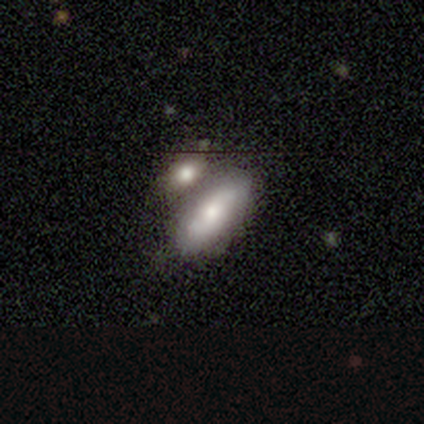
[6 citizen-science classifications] Volunteers were most divided on "how rounded" (2-way tie): in between: 50%, cigar-shaped: 50%, round: 0%. More confident: smooth or featured — smooth (67%); merging — none (50%).